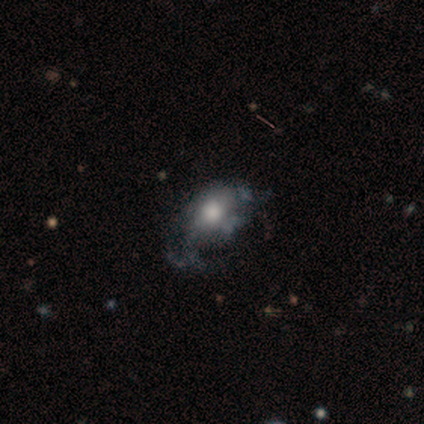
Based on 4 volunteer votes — A smooth galaxy with no disk features (75%) that is in between round and cigar-shaped (100%). Merging: minor disturbance (50%).